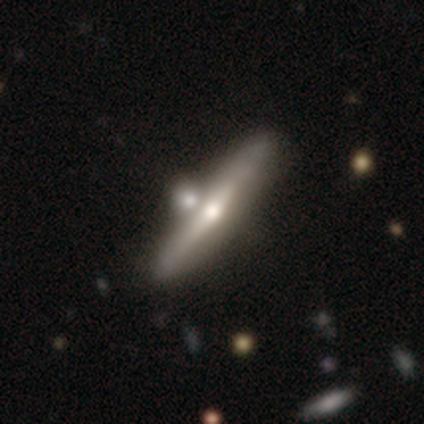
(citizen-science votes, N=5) Smooth or featured?
  - featured or disk: 60% *
  - smooth: 40%
  - star or artifact: 0%
Edge-on disk?
  - yes: 100% *
  - no: 0%
Edge-on bulge?
  - rounded: 67% *
  - none: 33%
  - boxy: 0%
Merging?
  - merger: 60% *
  - none: 20%
  - major disturbance: 20%
  - minor disturbance: 0%